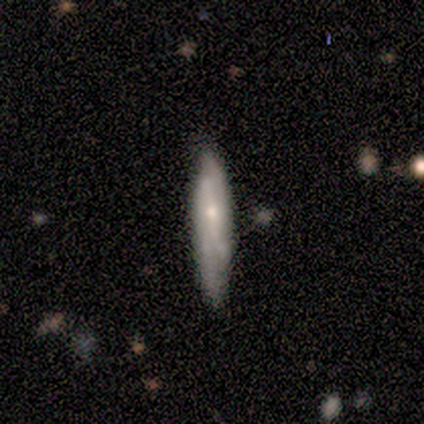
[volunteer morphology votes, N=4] Volunteers were most divided on "merging": none: 75%, minor disturbance: 25%, major disturbance: 0%, merger: 0%. More confident: smooth or featured — smooth (100%); how rounded — cigar-shaped (100%).